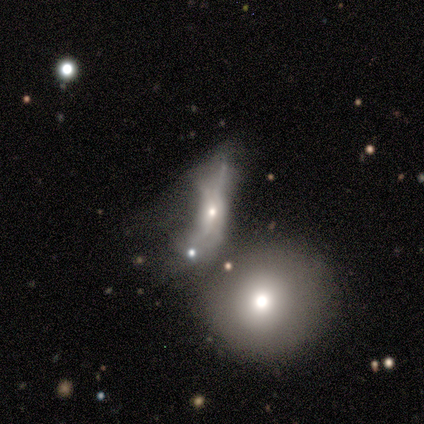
This appears to be a featured or disk galaxy (44%) with no bar (100%), no spiral arms (100%) and a small central bulge (67%). Merging: major disturbance (57%).